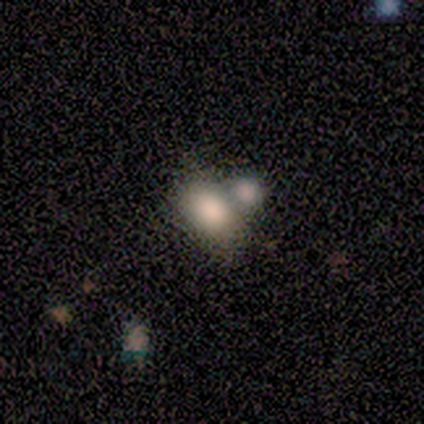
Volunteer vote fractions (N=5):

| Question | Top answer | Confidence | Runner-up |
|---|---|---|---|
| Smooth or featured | smooth | 60% | featured or disk (40%) |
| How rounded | in between | 100% | — |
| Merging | none | 40% | tied: merger (40%) |